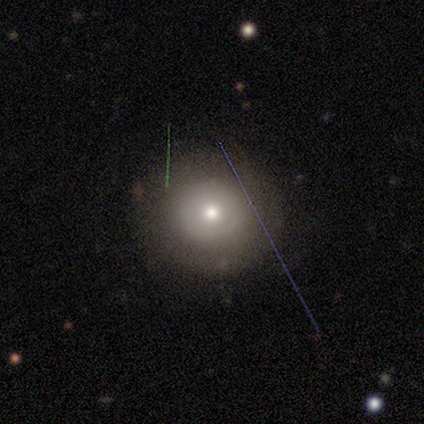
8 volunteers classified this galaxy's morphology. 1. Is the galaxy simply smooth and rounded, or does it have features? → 50% smooth, 38% featured or disk, 12% star or artifact.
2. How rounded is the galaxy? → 100% round, 0% in between, 0% cigar-shaped.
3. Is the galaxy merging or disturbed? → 71% none, 14% minor disturbance, 14% major disturbance, 0% merger.